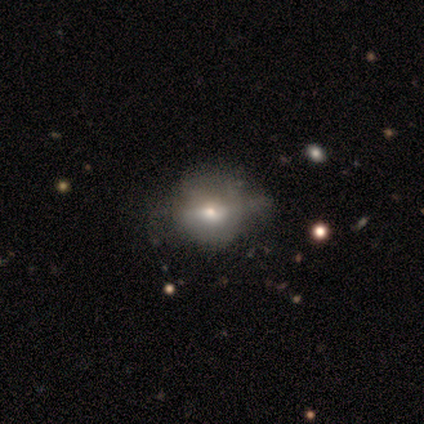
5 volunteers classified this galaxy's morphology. This is likely a featured or disk galaxy (60%). It is likely not viewed edge-on (67%). Bar: clearly no (100%). Spiral arm pattern: clearly no (100%). Central bulge: possibly moderate (50%, tied with small). Merging: clearly none (80%).